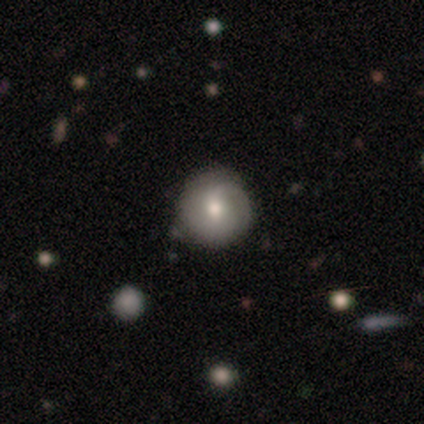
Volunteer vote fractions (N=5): Q: Smooth or featured?
A: smooth (100%)
Q: How rounded?
A: round (100%)
Q: Merging?
A: none (100%)